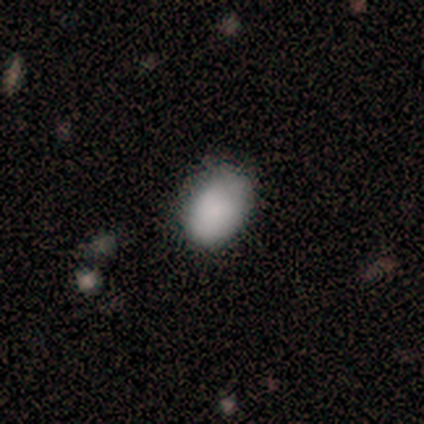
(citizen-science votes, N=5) This is clearly a smooth galaxy (80%). How rounded: likely in between (75%). Merging: likely none (75%).